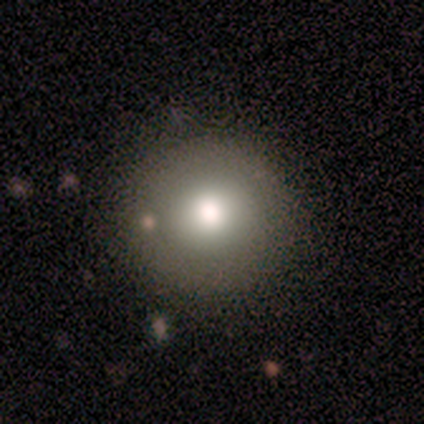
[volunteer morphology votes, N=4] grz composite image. It shows a smooth galaxy with no disk features (75%) that is round (100%). Merging: none (100%).